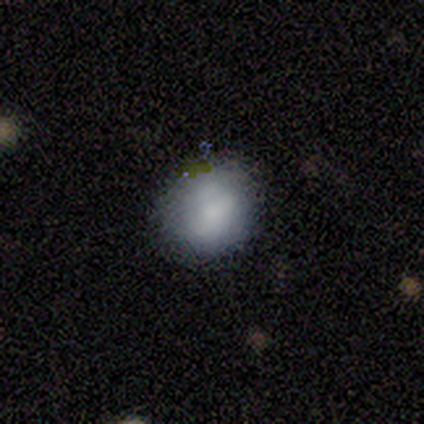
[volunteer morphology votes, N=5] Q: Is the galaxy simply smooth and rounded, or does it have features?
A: smooth — 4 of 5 (80%).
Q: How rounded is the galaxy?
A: round — 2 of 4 (50%, tied with in between).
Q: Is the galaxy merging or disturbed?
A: minor disturbance — 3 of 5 (60%).